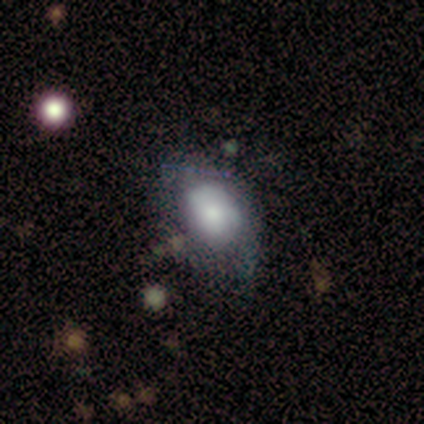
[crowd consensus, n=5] Morphology: type=smooth (60%); roundness=in between (67%); merging=major disturbance (50%).